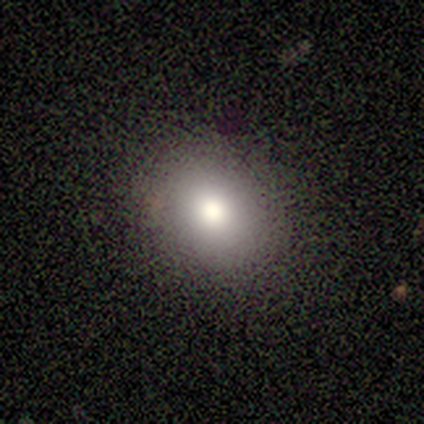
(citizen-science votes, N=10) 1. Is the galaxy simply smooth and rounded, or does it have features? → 70% smooth, 20% star or artifact, 10% featured or disk.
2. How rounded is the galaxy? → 86% in between, 14% round, 0% cigar-shaped.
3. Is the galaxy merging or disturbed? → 100% none, 0% minor disturbance, 0% major disturbance, 0% merger.